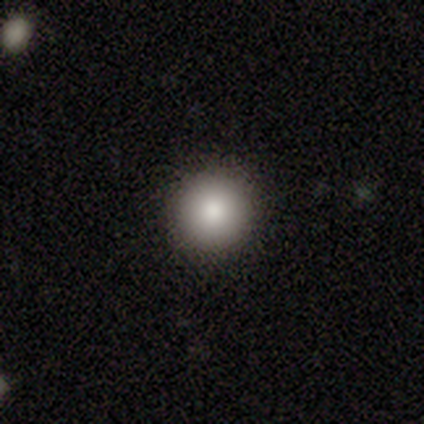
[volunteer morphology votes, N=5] Smooth or featured: smooth — 80% (featured or disk — 20%)
How rounded: round — 100%
Merging: none — 100%